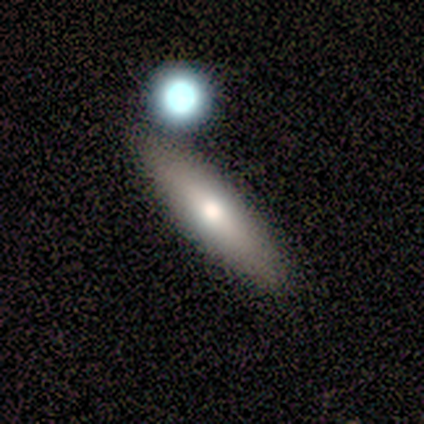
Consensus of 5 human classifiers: Smooth or featured: smooth — 80% (star or artifact — 20%)
How rounded: cigar-shaped — 100%
Merging: none — 100%